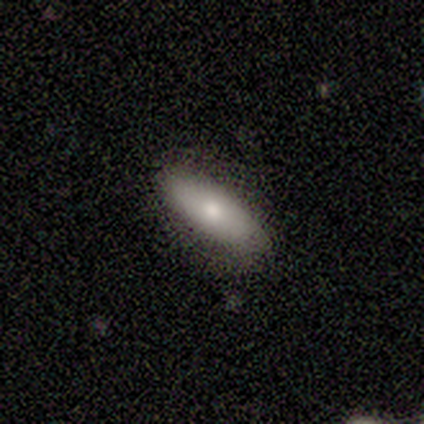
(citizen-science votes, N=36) Overall: smooth (69%). How rounded: in between (68%). Merging: none (88%).